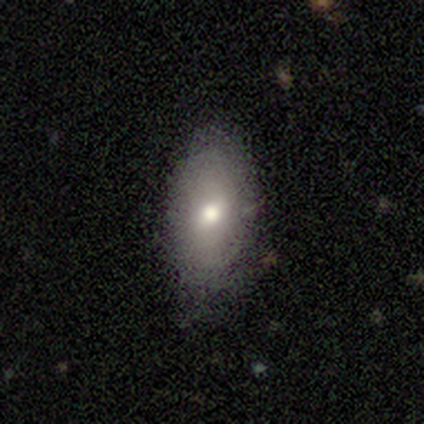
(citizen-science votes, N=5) smooth 80%, featured or disk 20%, star or artifact 0%. Down the decision tree: how rounded — round (50%, tied with in between); merging — none (60%).